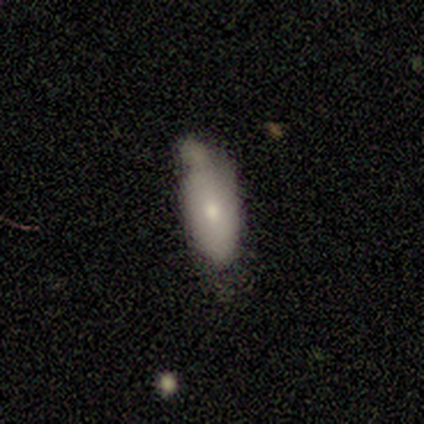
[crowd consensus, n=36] A smooth galaxy with no disk features (75%) that is in between round and cigar-shaped (81%). Merging: minor disturbance (44%).